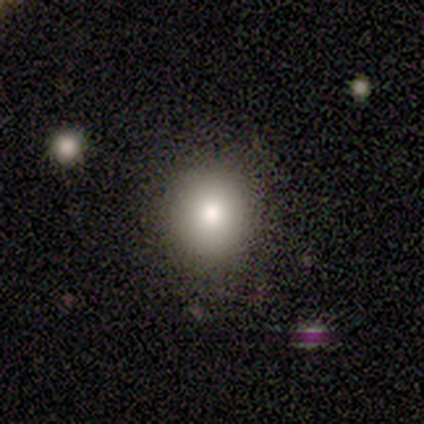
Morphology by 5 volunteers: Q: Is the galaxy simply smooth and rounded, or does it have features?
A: smooth — 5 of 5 (100%).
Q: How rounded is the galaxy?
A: round — 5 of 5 (100%).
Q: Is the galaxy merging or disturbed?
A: none — 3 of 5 (60%).